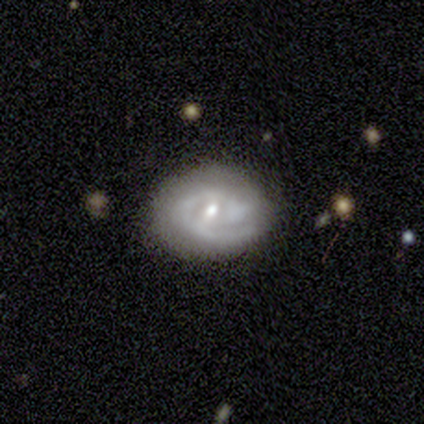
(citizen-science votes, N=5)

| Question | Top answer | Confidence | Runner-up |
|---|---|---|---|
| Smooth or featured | featured or disk | 100% | — |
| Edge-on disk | no | 100% | — |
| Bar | weak | 60% | strong (20%) |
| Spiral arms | yes | 100% | — |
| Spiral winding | tight | 60% | medium (40%) |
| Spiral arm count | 1 | 60% | 2 (40%) |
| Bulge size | moderate | 100% | — |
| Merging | none | 60% | minor disturbance (20%) |